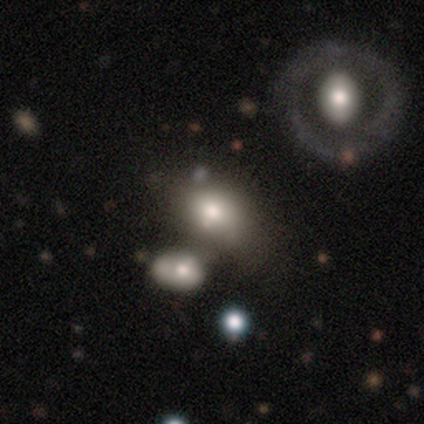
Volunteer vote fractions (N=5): This appears to be a featured or disk galaxy (60%) with a strong bar (33%, tied with weak and no), no spiral arms (100%) and a moderate central bulge (67%). Merging: none (60%).